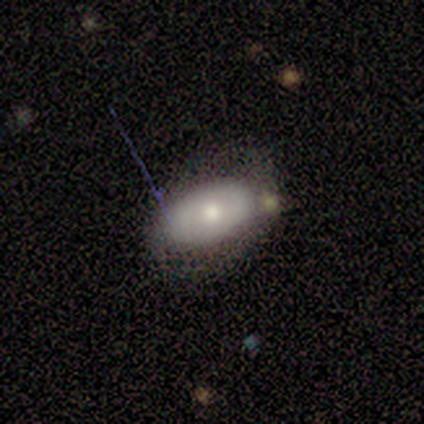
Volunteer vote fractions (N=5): smooth 60%, featured or disk 40%, star or artifact 0%. Down the decision tree: how rounded — in between (100%); merging — none (60%).